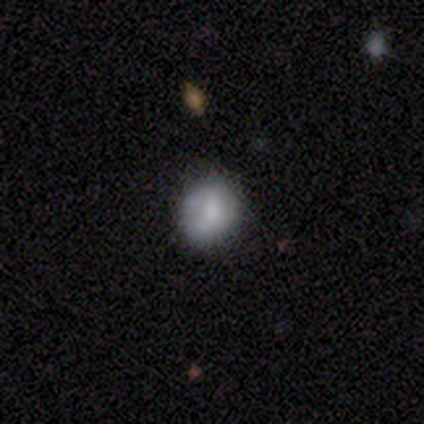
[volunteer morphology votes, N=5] A smooth galaxy with no disk features (60%) that is round (100%). Merging: none (80%).